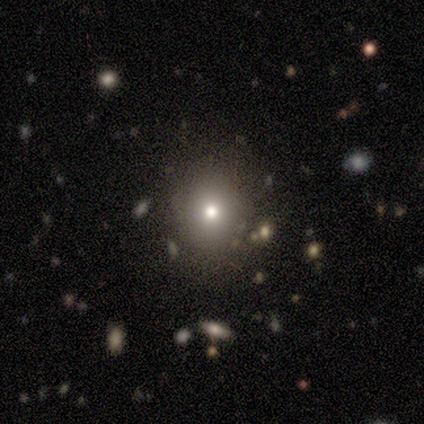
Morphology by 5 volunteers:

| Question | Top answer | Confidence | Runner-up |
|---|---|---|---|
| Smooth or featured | smooth | 60% | star or artifact (40%) |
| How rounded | round | 100% | — |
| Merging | none | 100% | — |